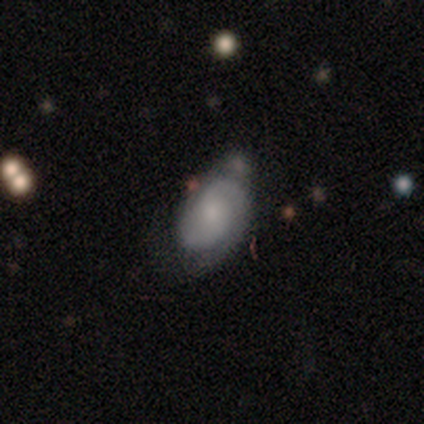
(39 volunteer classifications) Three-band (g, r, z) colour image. It shows a featured or disk galaxy (79%) with no bar (57%), 2 (89%) medium (54%) spiral arms (93%) and a moderate central bulge (43%). Merging: none (54%).